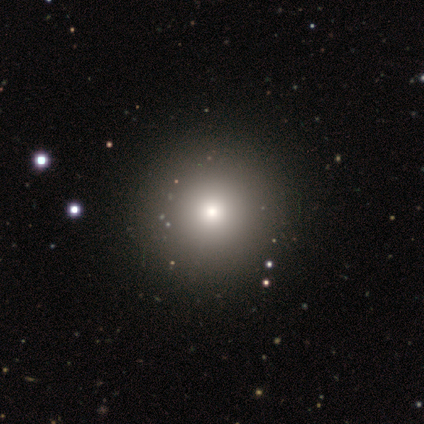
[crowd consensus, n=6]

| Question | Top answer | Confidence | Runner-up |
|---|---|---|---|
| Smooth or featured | smooth | 100% | — |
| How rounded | round | 83% | in between (17%) |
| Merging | none | 83% | minor disturbance (17%) |